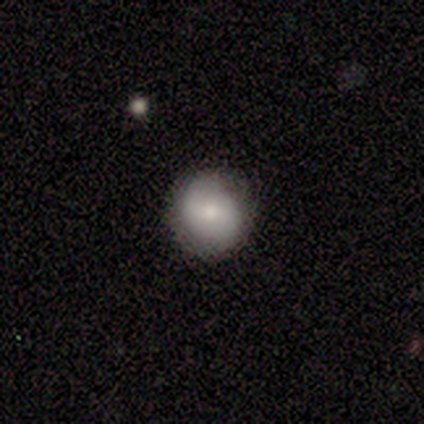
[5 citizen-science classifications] Smooth or featured: featured or disk — 60% (smooth — 40%)
Edge-on disk: no — 100%
Bar: weak — 67% (no — 33%)
Spiral arms: yes — 67% (no — 33%)
Spiral winding: tight — 100%
Spiral arm count: 2 — 100%
Bulge size: moderate — 67% (small — 33%)
Merging: none — 100%